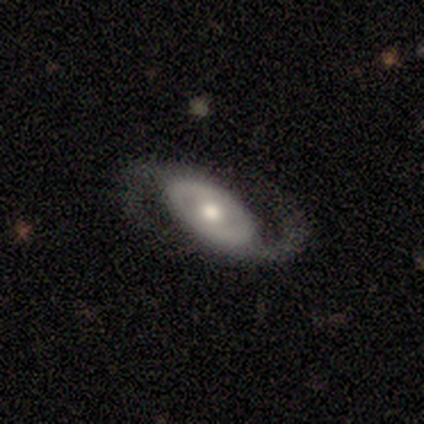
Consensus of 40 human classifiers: Overall: featured or disk (88%). Edge-on disk: no (91%). Bar: no (62%). Spiral arms: yes (91%). Spiral arm count: 2 (93%). Spiral winding: medium (55%; loose 41%). Bulge size: moderate (69%). Merging: none (81%).